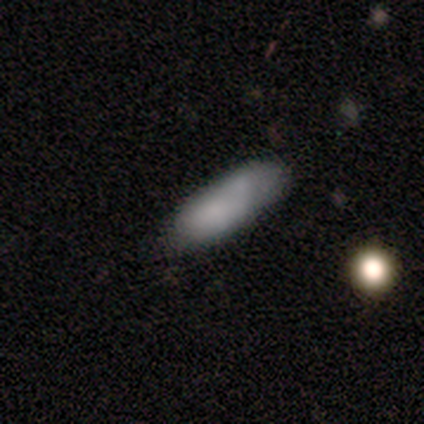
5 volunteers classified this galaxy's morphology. Overall: smooth (100%). How rounded: in between (80%). Merging: none (60%; minor disturbance 40%).